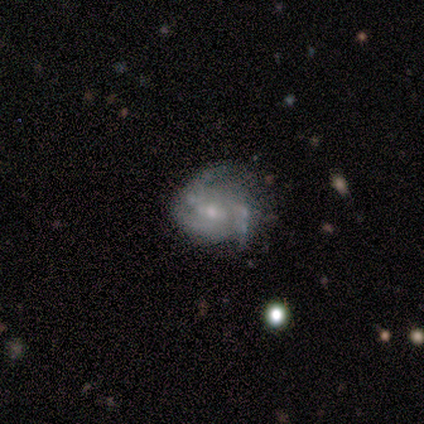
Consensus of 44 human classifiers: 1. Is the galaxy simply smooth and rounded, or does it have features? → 84% featured or disk, 16% smooth, 0% star or artifact.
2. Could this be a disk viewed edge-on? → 95% no, 5% yes.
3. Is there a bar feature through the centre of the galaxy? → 57% no, 43% weak, 0% strong.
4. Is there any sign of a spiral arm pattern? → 94% yes, 6% no.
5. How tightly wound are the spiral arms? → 45% tight (tied), 45% medium (tied), 9% loose.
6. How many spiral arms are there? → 55% 3, 30% 2, 15% can't tell, 0% 1, 0% 4, 0% more than 4.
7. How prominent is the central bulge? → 60% small, 40% moderate, 0% dominant, 0% large, 0% none.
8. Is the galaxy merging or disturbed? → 43% none, 41% minor disturbance, 11% major disturbance, 5% merger.